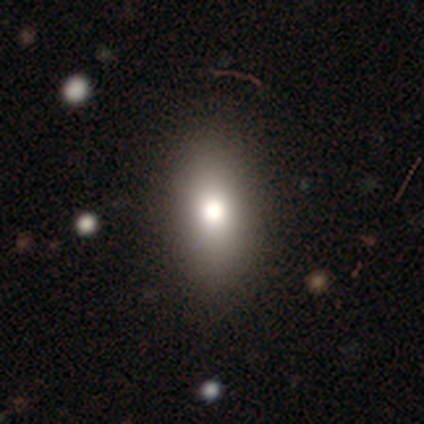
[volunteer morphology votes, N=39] A smooth galaxy with no disk features (77%) that is in between round and cigar-shaped (80%).

Vote fractions:
- Smooth or featured? smooth: 77% / star or artifact: 13% / featured or disk: 10%
- How rounded? in between: 80% / cigar-shaped: 13% / round: 7%
- Merging? none: 85% / minor disturbance: 12% / major disturbance: 3% / merger: 0%